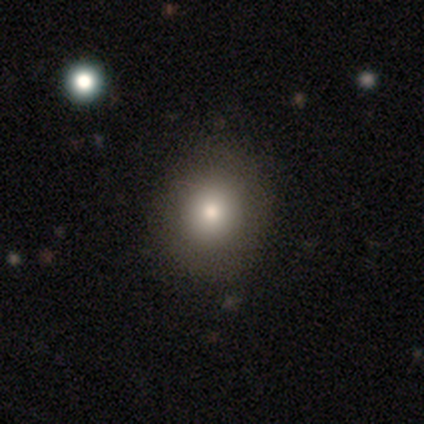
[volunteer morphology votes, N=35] type=smooth (77%); roundness=round (85%); merging=none (93%).